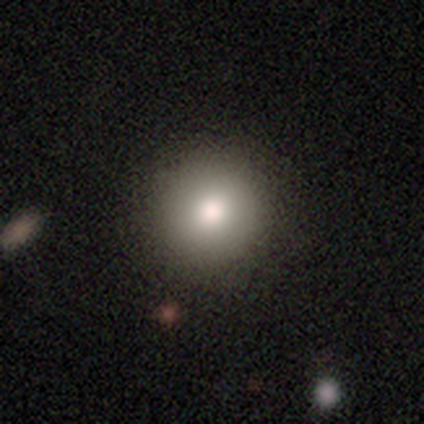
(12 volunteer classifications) Smooth or featured? 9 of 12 (75%) said smooth. How rounded? 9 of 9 (100%) said round. Merging? 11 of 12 (92%) said none.